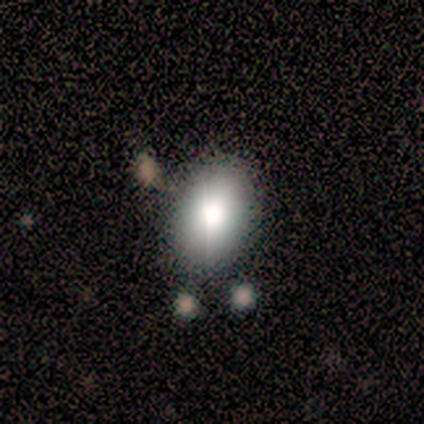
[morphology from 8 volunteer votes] smooth 75%, star or artifact 25%, featured or disk 0%. Down the decision tree: how rounded — in between (83%); merging — none (83%).